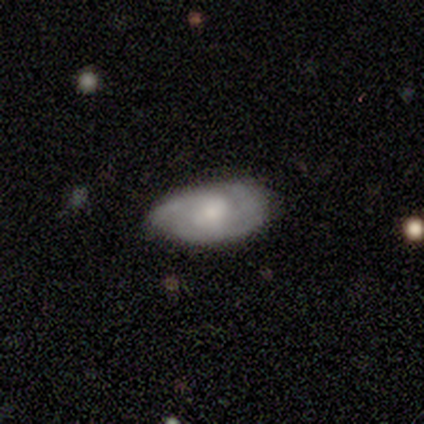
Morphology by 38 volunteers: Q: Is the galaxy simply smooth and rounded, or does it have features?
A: featured or disk — 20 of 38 (53%).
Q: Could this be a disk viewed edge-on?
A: no — 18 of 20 (90%).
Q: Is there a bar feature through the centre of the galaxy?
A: no — 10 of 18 (56%).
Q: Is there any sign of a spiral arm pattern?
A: yes — 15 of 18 (83%).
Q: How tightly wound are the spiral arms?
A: tight — 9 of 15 (60%).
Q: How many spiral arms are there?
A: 3 — 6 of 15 (40%).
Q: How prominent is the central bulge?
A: moderate — 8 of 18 (44%).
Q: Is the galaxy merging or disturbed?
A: none — 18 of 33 (55%).